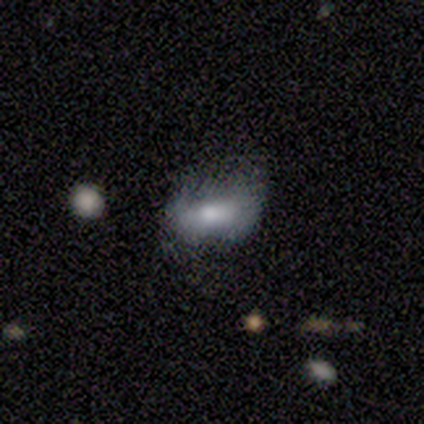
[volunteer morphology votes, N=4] This is possibly a smooth galaxy (50%). How rounded: clearly in between (100%). Merging: marginally none (33%, tied with minor disturbance and major disturbance).